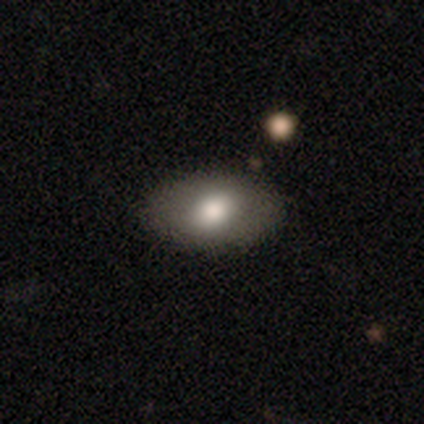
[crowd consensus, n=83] Smooth or featured? smooth (70%)
How rounded? in between (84%)
Merging? none (91%)